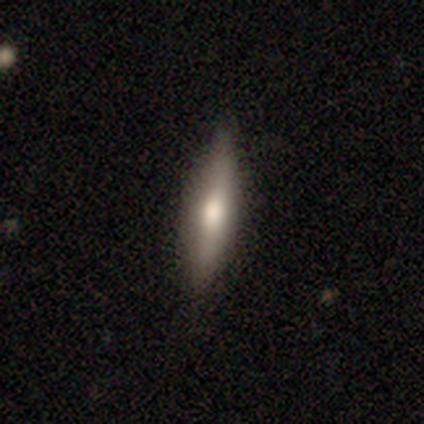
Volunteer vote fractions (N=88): A smooth galaxy with no disk features (52%) that is cigar-shaped (87%).

Vote fractions:
- Smooth or featured? smooth: 52% / featured or disk: 41% / star or artifact: 7%
- How rounded? cigar-shaped: 87% / in between: 13% / round: 0%
- Merging? none: 87% / minor disturbance: 11% / major disturbance: 1% / merger: 1%